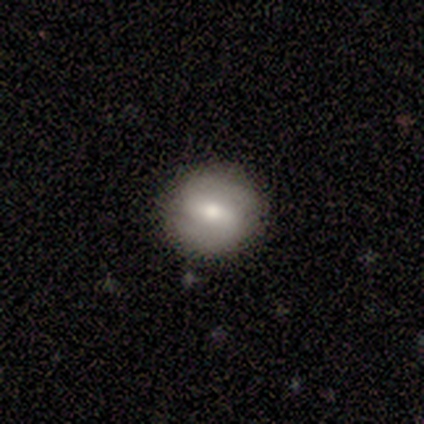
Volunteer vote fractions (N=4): This appears to be a smooth galaxy with no disk features (50%, tied with featured or disk) that is round (100%). Merging: none (75%).